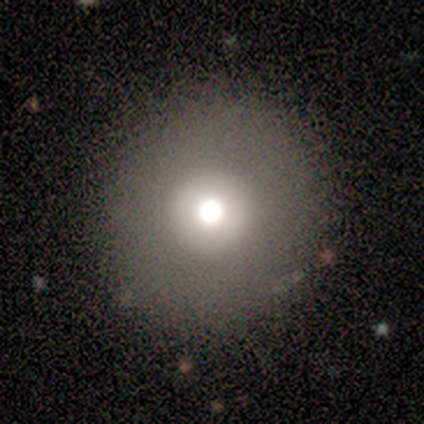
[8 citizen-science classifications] This appears to be a smooth galaxy with no disk features (62%) that is round (100%). Merging: none (83%).